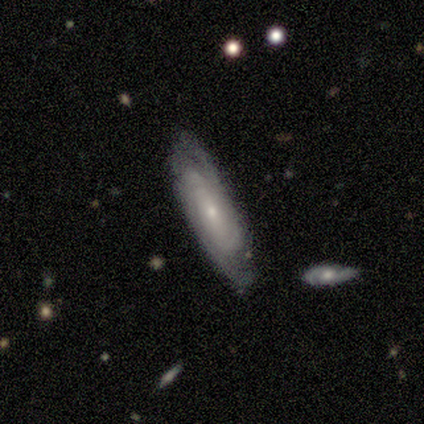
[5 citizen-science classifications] Smooth or featured? featured or disk (80%)
Edge-on disk? no (100%)
Bar? no (50%)
Spiral arms? yes (75%)
Spiral winding? tight (67%)
Spiral arm count? can't tell (67%)
Bulge size? small (100%)
Merging? none (100%)